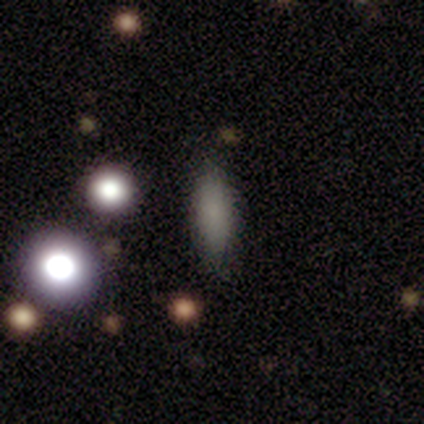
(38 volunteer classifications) Smooth or featured: smooth — 76% (featured or disk — 13%)
How rounded: in between — 59% (cigar-shaped — 34%)
Merging: none — 82% (minor disturbance — 15%)